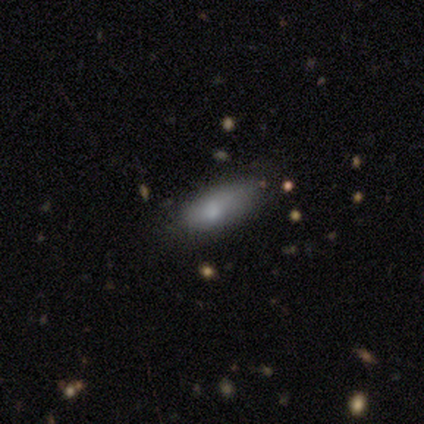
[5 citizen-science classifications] Smooth or featured?
  - smooth: 80% *
  - featured or disk: 20%
  - star or artifact: 0%
How rounded?
  - in between: 50% * (tied)
  - cigar-shaped: 50% * (tied)
  - round: 0%
Merging?
  - none: 80% *
  - minor disturbance: 20%
  - major disturbance: 0%
  - merger: 0%